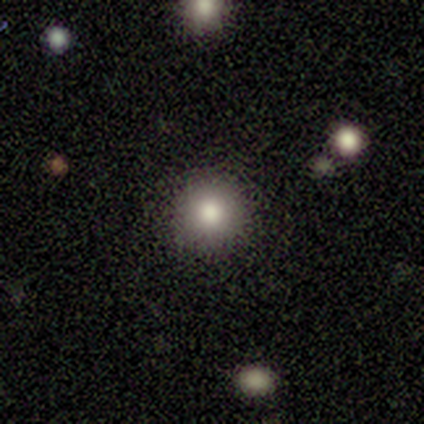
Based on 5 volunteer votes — This appears to be a featured or disk galaxy (40%, tied with star or artifact) with no bar (100%), no spiral arms (100%) and a large central bulge (100%). Merging: none (100%).